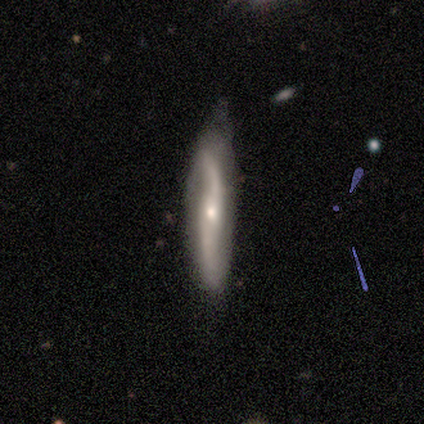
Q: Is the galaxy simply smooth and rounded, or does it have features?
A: featured or disk — 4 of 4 (100%).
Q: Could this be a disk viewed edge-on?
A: no — 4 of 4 (100%).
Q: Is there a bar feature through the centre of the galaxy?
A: weak — 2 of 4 (50%, tied with no).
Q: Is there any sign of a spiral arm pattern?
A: yes — 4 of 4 (100%).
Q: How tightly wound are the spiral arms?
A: loose — 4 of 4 (100%).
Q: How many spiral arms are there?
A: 2 — 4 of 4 (100%).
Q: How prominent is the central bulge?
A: small — 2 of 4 (50%).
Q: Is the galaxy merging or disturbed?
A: none — 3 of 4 (75%).